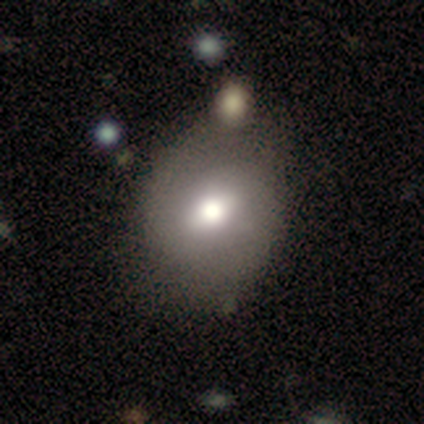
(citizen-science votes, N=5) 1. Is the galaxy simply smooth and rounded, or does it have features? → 80% smooth, 20% featured or disk, 0% star or artifact.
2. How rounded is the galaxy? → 50% round (tied), 50% in between (tied), 0% cigar-shaped.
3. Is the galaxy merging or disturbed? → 60% none, 20% minor disturbance, 20% major disturbance, 0% merger.